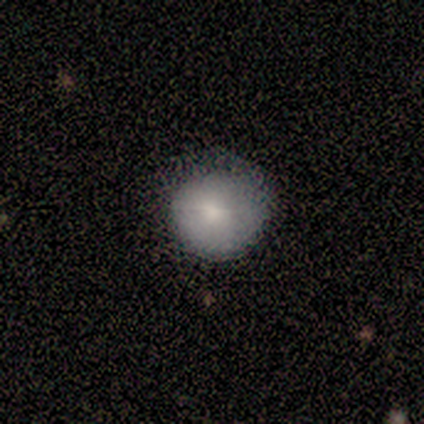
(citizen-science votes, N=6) This is possibly a featured or disk galaxy (50%). It is clearly not viewed edge-on (100%). Bar: likely no (67%). Spiral arm pattern: likely no (67%). Central bulge: clearly small (100%). Merging: likely none (60%).